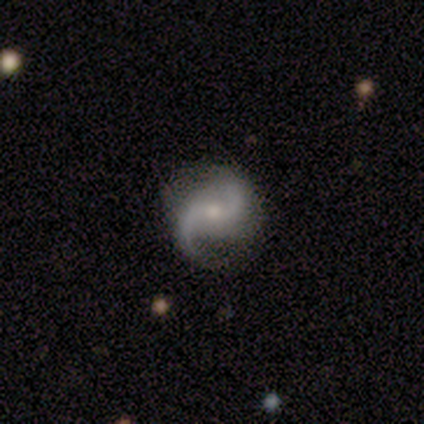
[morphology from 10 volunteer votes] This is clearly a featured or disk galaxy (100%). It is clearly not viewed edge-on (100%). Bar: likely no (70%). Spiral arm pattern: clearly yes (100%). Spiral arm count: clearly 2 (100%). Spiral winding: marginally loose (40%). Central bulge: likely moderate (70%). Merging: likely none (70%).